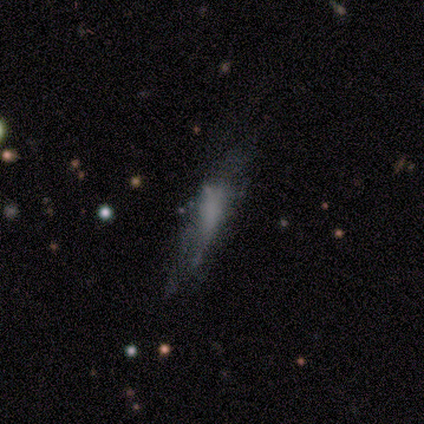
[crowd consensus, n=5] smooth-or-featured: featured or disk: 60% | smooth: 40% | star or artifact: 0%
  disk-edge-on: no: 100% | yes: 0%
    bar: no: 67% | weak: 33% | strong: 0%
    has-spiral-arms: no: 67% | yes: 33%
    bulge-size: none: 67% | moderate: 33% | dominant: 0% | large: 0% | small: 0%
  merging: none: 60% | minor disturbance: 20% | merger: 20% | major disturbance: 0%